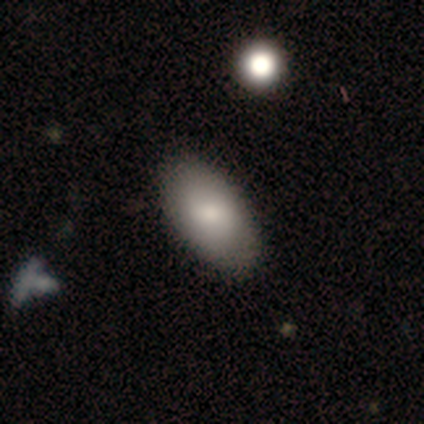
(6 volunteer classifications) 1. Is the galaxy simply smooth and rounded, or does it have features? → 83% smooth, 17% featured or disk, 0% star or artifact.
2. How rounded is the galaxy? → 80% in between, 20% cigar-shaped, 0% round.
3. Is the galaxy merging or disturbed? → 100% none, 0% minor disturbance, 0% major disturbance, 0% merger.